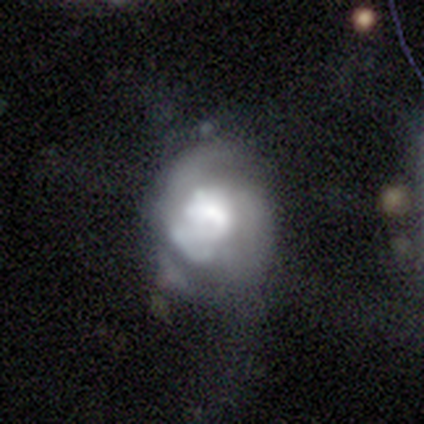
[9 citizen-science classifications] This appears to be a featured or disk galaxy (89%) with no bar (75%), 2 (50%, tied with can't tell) tight (50%, tied with medium) spiral arms (50%, tied with no) and a dominant central bulge (38%). Merging: major disturbance (67%).